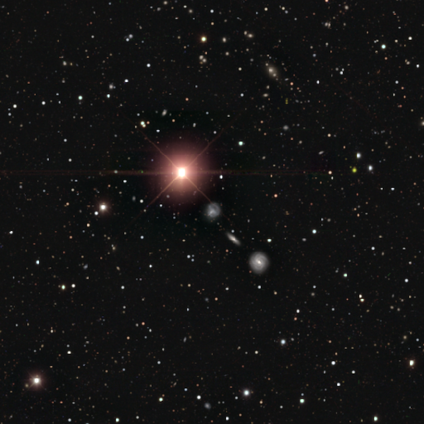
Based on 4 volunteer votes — A star or artifact, not a galaxy (100%).